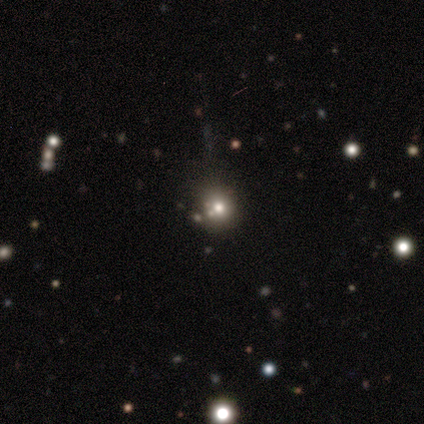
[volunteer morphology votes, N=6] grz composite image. It shows a smooth galaxy with no disk features (50%, tied with star or artifact) that is round (100%). Merging: none (100%).